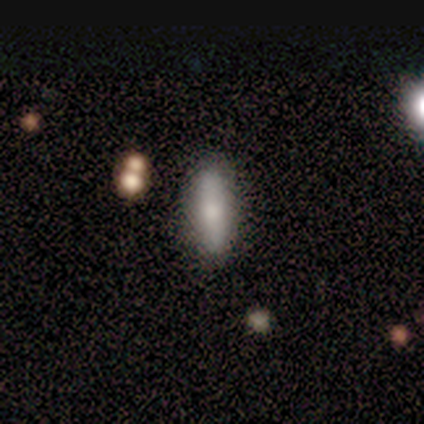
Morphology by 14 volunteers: Q: Smooth or featured?
A: smooth (93%); runner-up: featured or disk (7%)
Q: How rounded?
A: cigar-shaped (54%); runner-up: in between (46%)
Q: Merging?
A: none (79%); runner-up: minor disturbance (14%)